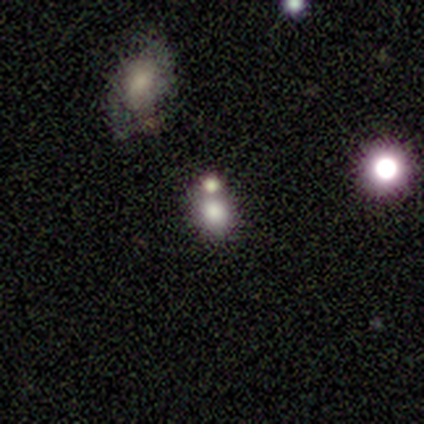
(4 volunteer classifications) Smooth or featured: smooth — 75% (star or artifact — 25%)
How rounded: round — 100%
Merging: merger — 67% (major disturbance — 33%)